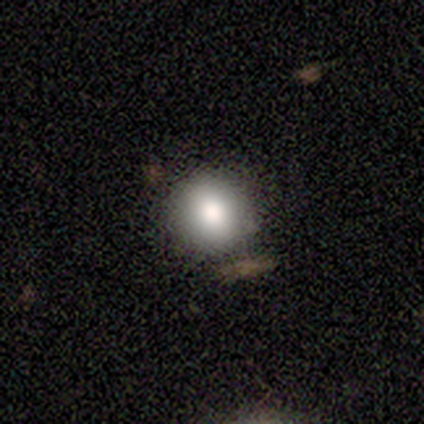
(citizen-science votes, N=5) This is clearly a smooth galaxy (80%). How rounded: clearly round (100%). Merging: clearly none (100%).